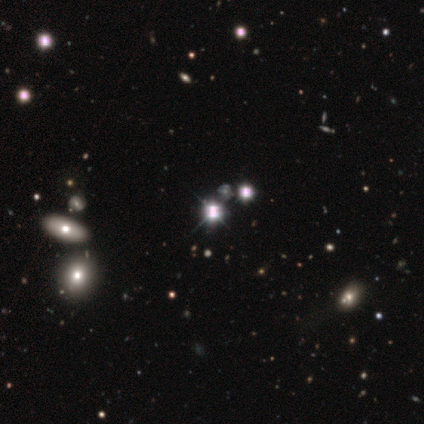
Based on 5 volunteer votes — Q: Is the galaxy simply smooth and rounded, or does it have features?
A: star or artifact — 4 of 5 (80%).